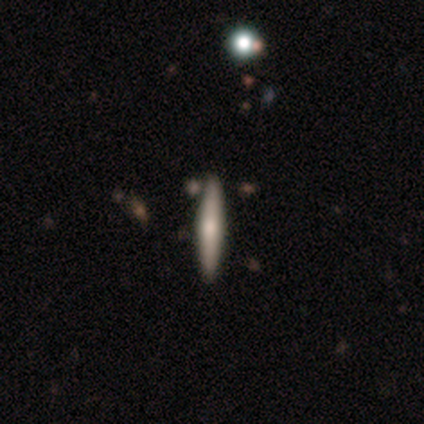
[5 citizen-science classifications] A smooth galaxy with no disk features (60%) that is cigar-shaped (100%).

Vote fractions:
- Smooth or featured? smooth: 60% / featured or disk: 40% / star or artifact: 0%
- How rounded? cigar-shaped: 100% / round: 0% / in between: 0%
- Merging? none: 100% / minor disturbance: 0% / major disturbance: 0% / merger: 0%